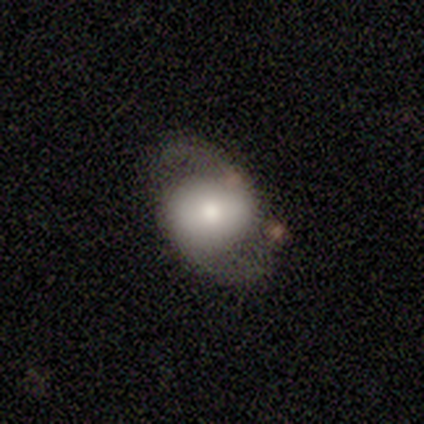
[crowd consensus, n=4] Morphology: type=featured or disk (75%); edge-on=no (100%); bar=no (67%); spiral arms=yes (67%); winding=tight (50%, tied with loose); arm count=2 (100%); bulge=dominant (33%, tied with moderate and small); merging=none (75%).